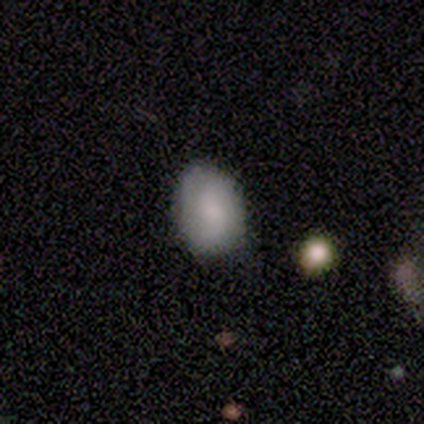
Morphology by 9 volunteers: smooth 67%, featured or disk 33%, star or artifact 0%. Down the decision tree: how rounded — in between (67%); merging — none (67%).